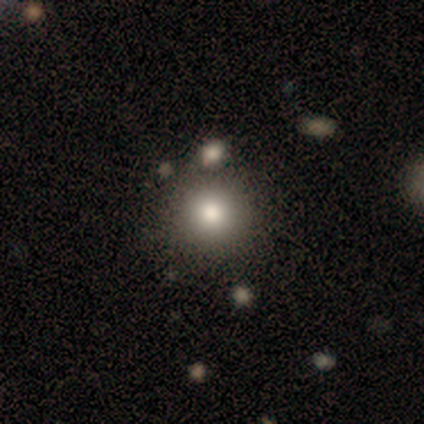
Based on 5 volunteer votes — Smooth or featured? smooth (80%)
How rounded? round (100%)
Merging? none (100%)